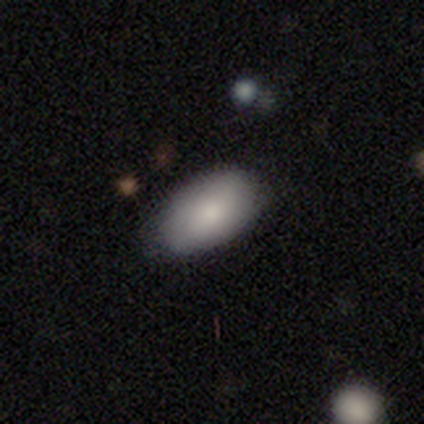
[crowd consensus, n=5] smooth_or_featured: smooth (p=0.80) [alt: star or artifact p=0.20]
how_rounded: in between (p=1.00)
merging: none (p=1.00)